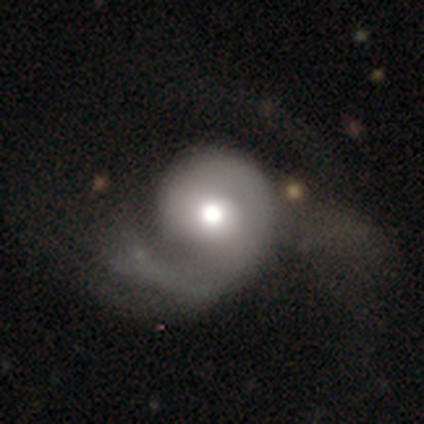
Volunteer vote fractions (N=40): Smooth or featured?
  - featured or disk: 72% *
  - smooth: 20%
  - star or artifact: 8%
Edge-on disk?
  - no: 97% *
  - yes: 3%
Bar?
  - no: 93% *
  - weak: 7%
  - strong: 0%
Spiral arms?
  - yes: 89% *
  - no: 11%
Spiral winding?
  - loose: 40% *
  - medium: 32%
  - tight: 28%
Spiral arm count?
  - 1: 92% *
  - 2: 8%
  - 3: 0%
  - 4: 0%
  - more than 4: 0%
  - can't tell: 0%
Bulge size?
  - moderate: 71% *
  - large: 14%
  - dominant: 7%
  - small: 7%
  - none: 0%
Merging?
  - major disturbance: 51% *
  - none: 27%
  - minor disturbance: 16%
  - merger: 5%